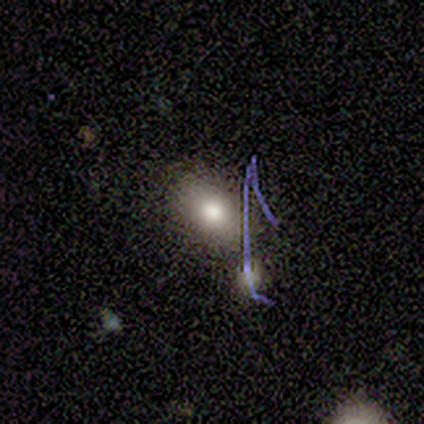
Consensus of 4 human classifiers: smooth-or-featured: smooth: 100% | featured or disk: 0% | star or artifact: 0%
  how-rounded: in between: 100% | round: 0% | cigar-shaped: 0%
  merging: none: 100% | minor disturbance: 0% | major disturbance: 0% | merger: 0%